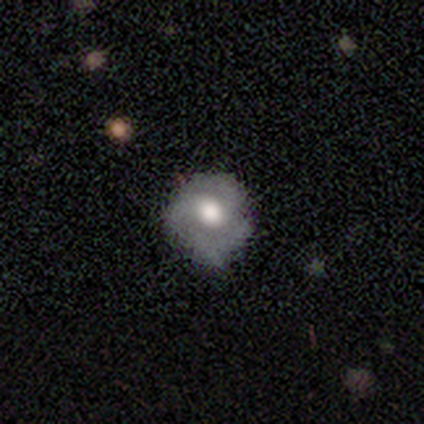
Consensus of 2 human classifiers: Q: Smooth or featured?
A: smooth (50%); tied with: featured or disk (50%)
Q: How rounded?
A: round (100%)
Q: Merging?
A: none (50%); tied with: minor disturbance (50%)